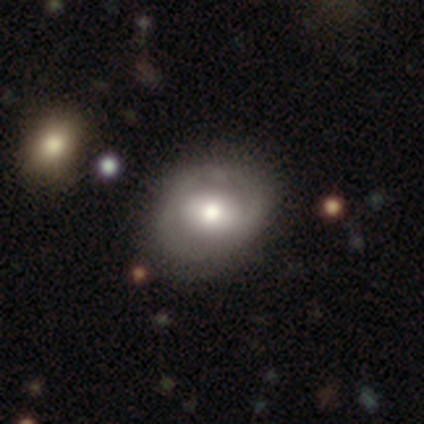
Overall: featured or disk (51%; smooth 46%). Edge-on disk: no (98%). Bar: no (52%; weak 28%). Spiral arms: no (68%; yes 32%). Bulge size: moderate (57%; large 35%). Merging: none (32%; minor disturbance 12%).